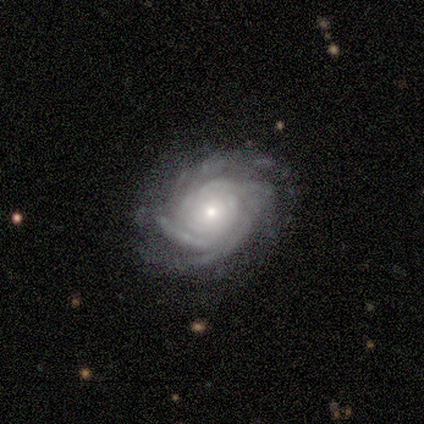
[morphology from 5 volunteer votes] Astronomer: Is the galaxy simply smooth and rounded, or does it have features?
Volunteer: featured or disk — 100%.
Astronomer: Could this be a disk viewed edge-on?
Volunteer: no — 80%.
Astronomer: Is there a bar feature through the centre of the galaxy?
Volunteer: no — 100%.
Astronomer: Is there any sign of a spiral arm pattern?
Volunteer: yes — 100%.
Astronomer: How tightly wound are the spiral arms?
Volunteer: tight — 100%.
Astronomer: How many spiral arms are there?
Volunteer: more than 4 — 50%.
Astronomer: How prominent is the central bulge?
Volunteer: small — 75%.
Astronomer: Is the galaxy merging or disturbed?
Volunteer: none — 100%.